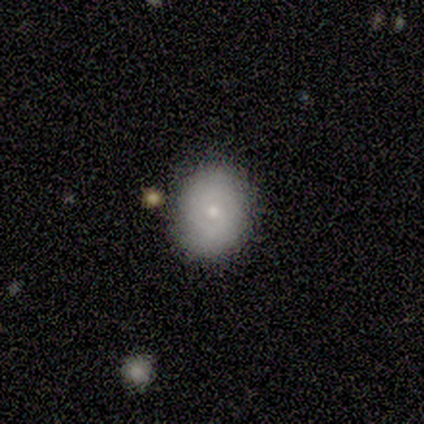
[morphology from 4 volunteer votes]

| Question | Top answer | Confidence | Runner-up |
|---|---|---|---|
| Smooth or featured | smooth | 100% | — |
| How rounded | round | 50% | tied: in between (50%) |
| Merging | none | 100% | — |